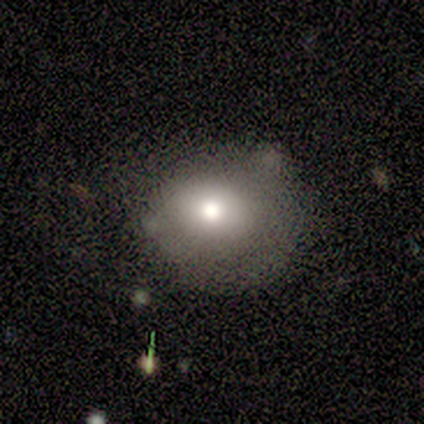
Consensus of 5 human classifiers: Volunteers were most divided on "smooth or featured" (2-way tie): smooth: 40%, featured or disk: 40%, star or artifact: 20%. More confident: how rounded — round (100%); merging — none (100%).